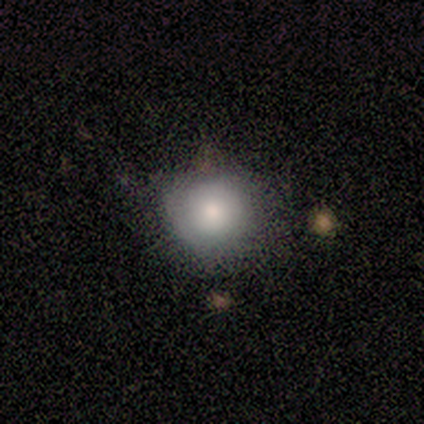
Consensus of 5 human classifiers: smooth-or-featured: smooth: 60% | featured or disk: 20% | star or artifact: 20%
  how-rounded: round: 100% | in between: 0% | cigar-shaped: 0%
  merging: none: 100% | minor disturbance: 0% | major disturbance: 0% | merger: 0%